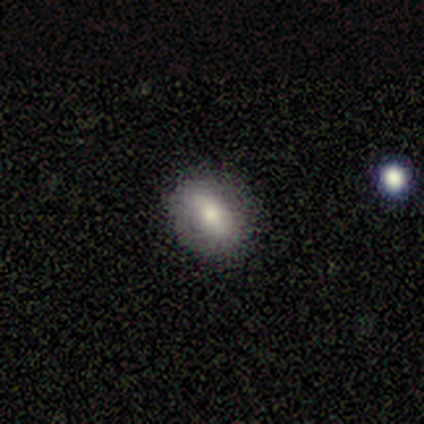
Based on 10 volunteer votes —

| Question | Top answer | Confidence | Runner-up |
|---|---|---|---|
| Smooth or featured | smooth | 80% | featured or disk (10%) |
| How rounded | in between | 100% | — |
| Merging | none | 89% | minor disturbance (11%) |